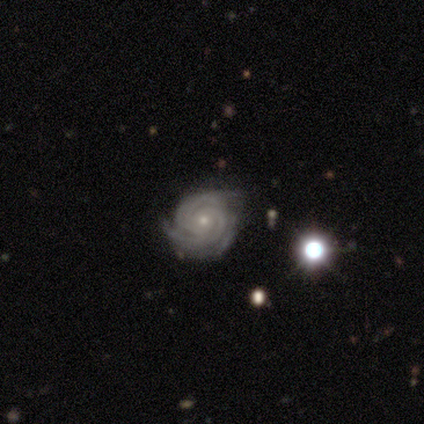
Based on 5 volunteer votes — Smooth or featured? featured or disk (80%)
Edge-on disk? no (100%)
Bar? weak (50%, tied with no)
Spiral arms? yes (75%)
Spiral winding? tight (100%)
Spiral arm count? 3 (67%)
Bulge size? small (100%)
Merging? none (80%)